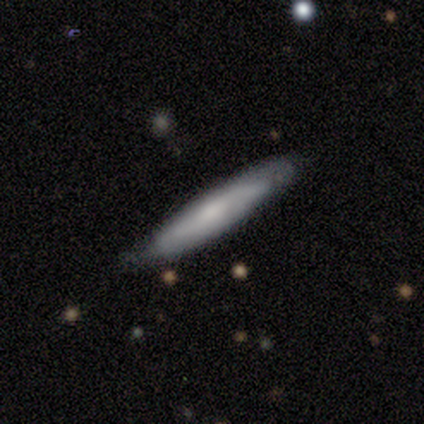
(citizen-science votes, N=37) smooth 46%, featured or disk 43%, star or artifact 11%. Down the decision tree: how rounded — cigar-shaped (94%); merging — none (76%).